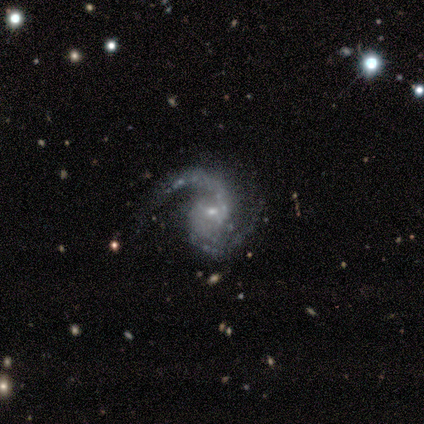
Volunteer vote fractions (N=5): This appears to be a featured or disk galaxy (100%) with no bar (80%), 2 (80%) medium (60%) spiral arms (100%) and a small central bulge (60%). Merging: none (80%).